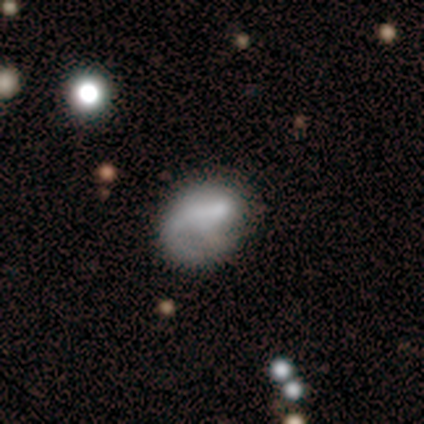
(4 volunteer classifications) This appears to be a smooth galaxy with no disk features (50%, tied with featured or disk) that is round (50%, tied with in between). Merging: minor disturbance (75%).